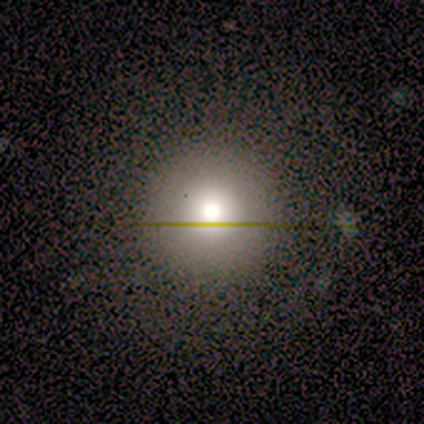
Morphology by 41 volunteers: type=smooth (73%); roundness=round (100%); merging=none (81%).